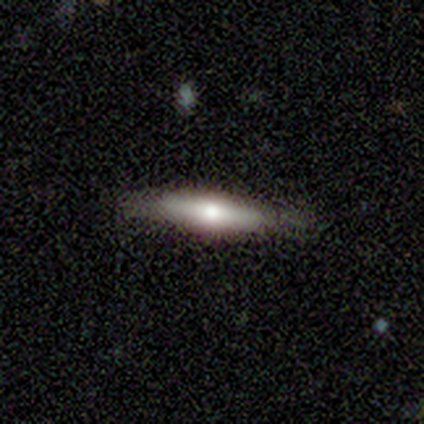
Smooth or featured? 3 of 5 (60%) said smooth. How rounded? 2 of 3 (67%) said in between. Merging? 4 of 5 (80%) said none.